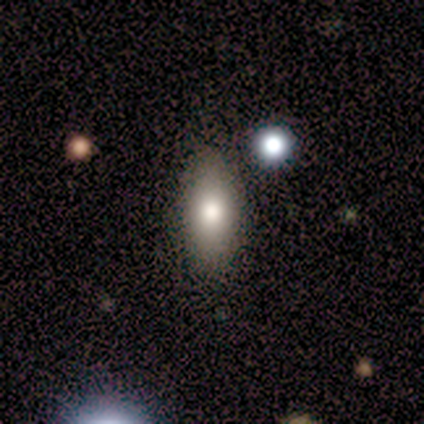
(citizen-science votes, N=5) Overall: smooth (60%; featured or disk 20%). How rounded: in between (100%). Merging: none (100%).